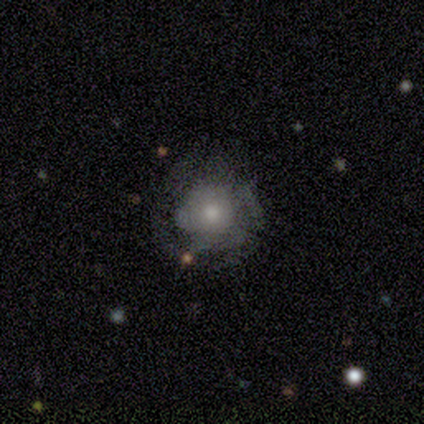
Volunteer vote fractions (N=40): Smooth or featured? 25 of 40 (62%) said featured or disk. Edge-on disk? 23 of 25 (92%) said no. Bar? 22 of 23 (96%) said no. Spiral arms? 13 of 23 (57%) said yes. Spiral winding? 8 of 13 (62%) said tight. Spiral arm count? 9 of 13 (69%) said can't tell. Bulge size? 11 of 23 (48%) said small. Merging? 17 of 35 (49%) said none.